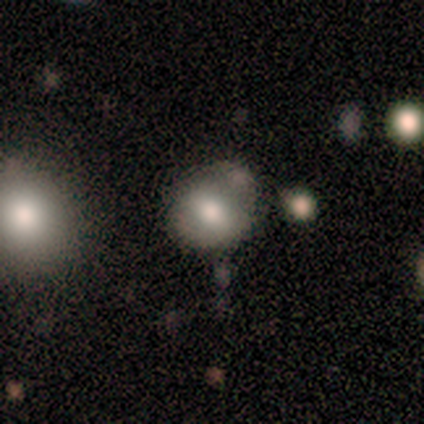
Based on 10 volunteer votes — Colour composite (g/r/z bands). It shows a smooth galaxy with no disk features (80%) that is round (75%). Merging: none (67%).